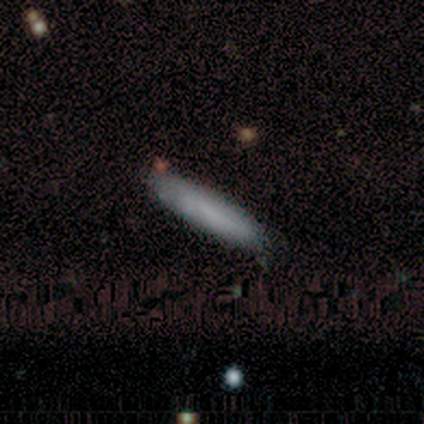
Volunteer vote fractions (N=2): smooth 100%, featured or disk 0%, star or artifact 0%. Down the decision tree: how rounded — cigar-shaped (100%); merging — none (100%).